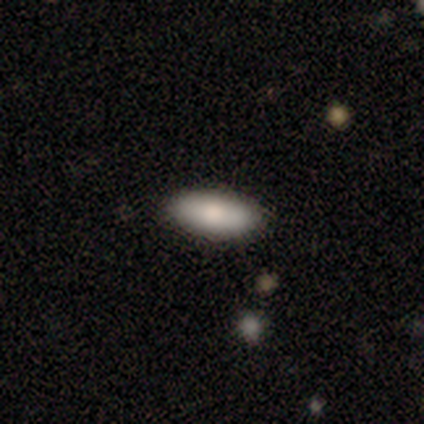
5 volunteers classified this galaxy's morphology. This is likely a smooth galaxy (60%). How rounded: clearly in between (100%). Merging: clearly none (100%).